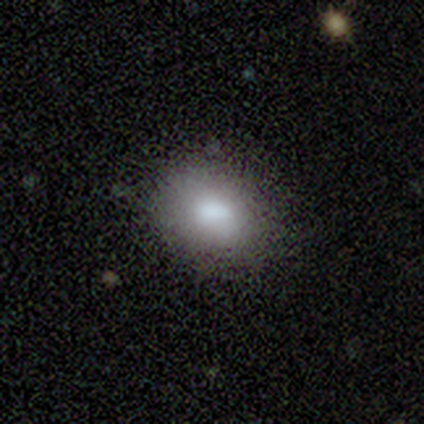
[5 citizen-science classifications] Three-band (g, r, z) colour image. It shows a smooth galaxy with no disk features (60%) that is in between round and cigar-shaped (67%). Merging: none (75%).